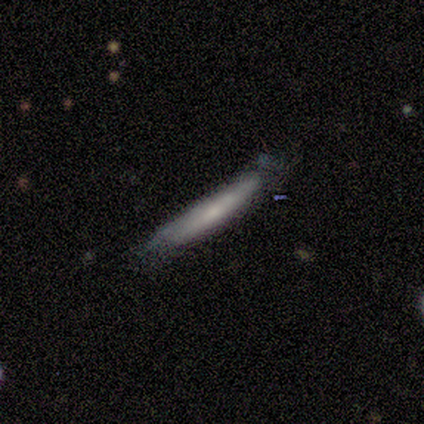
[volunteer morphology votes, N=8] A featured or disk galaxy (88%) viewed edge-on (71%) with no central bulge (60%).

Vote fractions:
- Smooth or featured? featured or disk: 88% / smooth: 12% / star or artifact: 0%
- Edge-on disk? yes: 71% / no: 29%
- Edge-on bulge? none: 60% / rounded: 40% / boxy: 0%
- Merging? none: 50% / minor disturbance: 25% / major disturbance: 25% / merger: 0%